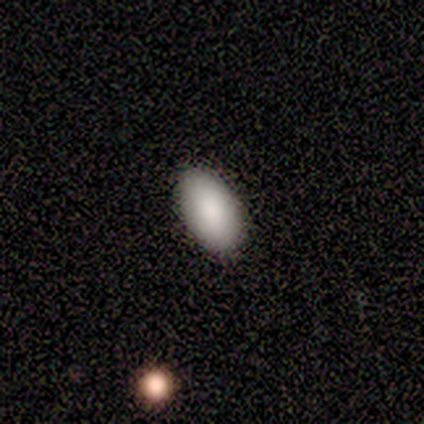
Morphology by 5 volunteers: Smooth or featured? smooth (100%)
How rounded? in between (100%)
Merging? none (80%)